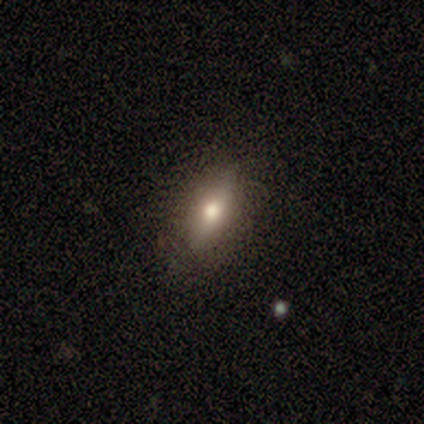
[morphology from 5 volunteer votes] A smooth galaxy with no disk features (60%) that is in between round and cigar-shaped (67%).

Vote fractions:
- Smooth or featured? smooth: 60% / featured or disk: 20% / star or artifact: 20%
- How rounded? in between: 67% / cigar-shaped: 33% / round: 0%
- Merging? none: 100% / minor disturbance: 0% / major disturbance: 0% / merger: 0%